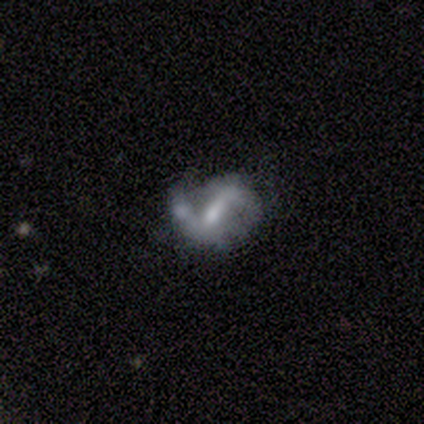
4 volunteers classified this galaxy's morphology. Smooth or featured? 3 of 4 (75%) said featured or disk. Edge-on disk? 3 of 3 (100%) said no. Bar? 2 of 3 (67%) said strong. Spiral arms? 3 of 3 (100%) said yes. Spiral winding? 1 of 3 (33%, tied with medium and loose) said tight. Spiral arm count? 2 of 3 (67%) said 2. Bulge size? 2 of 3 (67%) said small. Merging? 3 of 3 (100%) said minor disturbance.